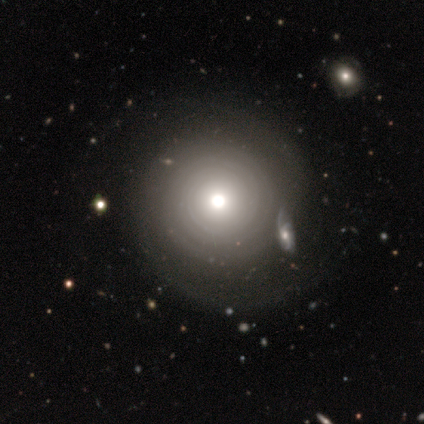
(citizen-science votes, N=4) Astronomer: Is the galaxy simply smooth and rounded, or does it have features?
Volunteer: featured or disk — 50%.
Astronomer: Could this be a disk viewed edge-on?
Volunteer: no — 100%.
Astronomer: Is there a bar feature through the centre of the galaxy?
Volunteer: strong — 50%, tied with no at 50%.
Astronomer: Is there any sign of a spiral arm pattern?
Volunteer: yes — 50%, tied with no at 50%.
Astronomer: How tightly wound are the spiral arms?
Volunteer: tight — 100%.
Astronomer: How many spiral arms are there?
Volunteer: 1 — 100%.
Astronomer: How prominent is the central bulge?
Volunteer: moderate — 100%.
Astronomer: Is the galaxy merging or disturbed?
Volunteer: minor disturbance — 67%.